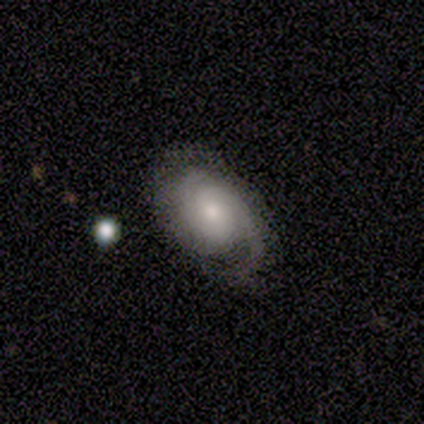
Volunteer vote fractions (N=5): Q: Smooth or featured?
A: featured or disk (80%); runner-up: smooth (20%)
Q: Edge-on disk?
A: no (75%); runner-up: yes (25%)
Q: Bar?
A: no (100%)
Q: Spiral arms?
A: yes (100%)
Q: Spiral winding?
A: tight (67%); runner-up: loose (33%)
Q: Spiral arm count?
A: 1 (33%); tied with: 2 (33%); can't tell (33%)
Q: Bulge size?
A: small (67%); runner-up: moderate (33%)
Q: Merging?
A: none (80%); runner-up: minor disturbance (20%)